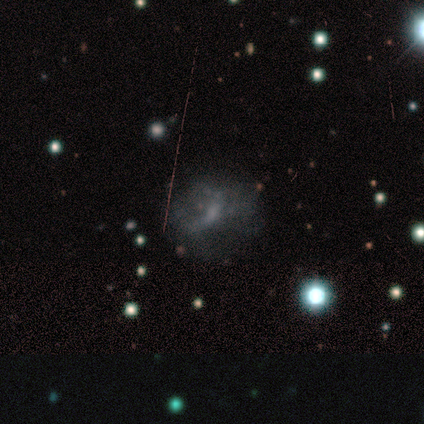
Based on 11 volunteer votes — This appears to be a featured or disk galaxy (64%) with no bar (86%), no spiral arms (86%) and a small central bulge (71%). Merging: none (62%).